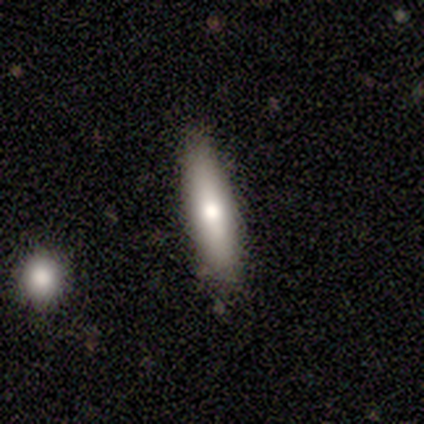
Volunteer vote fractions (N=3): Smooth or featured? smooth (100%)
How rounded? cigar-shaped (67%)
Merging? none (67%)